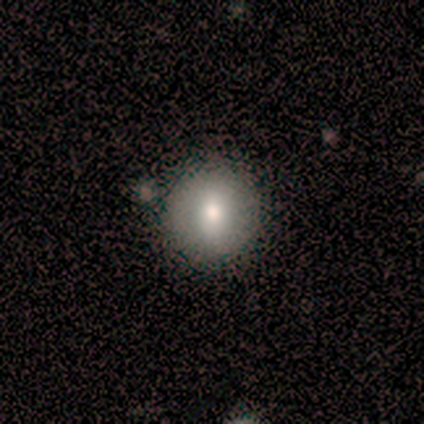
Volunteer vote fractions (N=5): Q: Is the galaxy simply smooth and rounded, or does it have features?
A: smooth — 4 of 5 (80%).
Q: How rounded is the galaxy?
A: round — 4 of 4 (100%).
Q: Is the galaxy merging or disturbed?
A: none — 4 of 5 (80%).